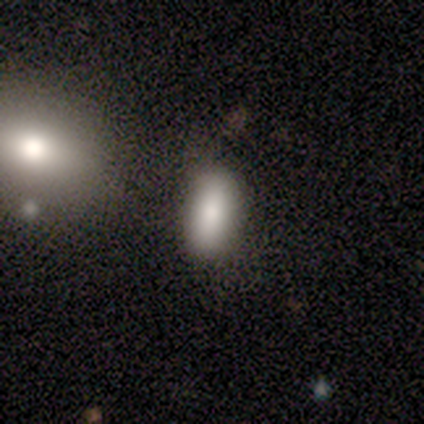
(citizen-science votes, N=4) A smooth galaxy with no disk features (75%) that is in between round and cigar-shaped (100%). Merging: none (67%).